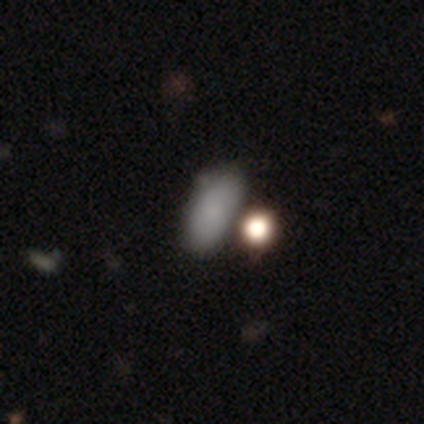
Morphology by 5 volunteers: Smooth or featured?
  - smooth: 100% *
  - featured or disk: 0%
  - star or artifact: 0%
How rounded?
  - in between: 100% *
  - round: 0%
  - cigar-shaped: 0%
Merging?
  - none: 80% *
  - merger: 20%
  - minor disturbance: 0%
  - major disturbance: 0%